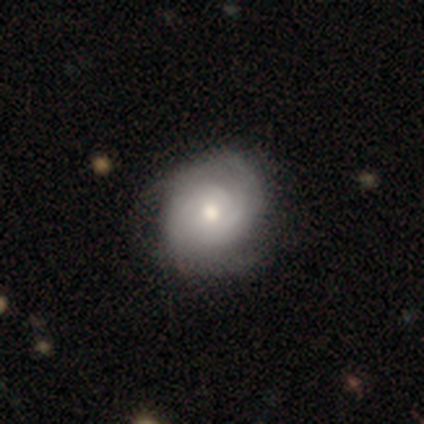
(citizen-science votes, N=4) Volunteers were most divided on "spiral winding": loose: 67%, tight: 33%, medium: 0%. More confident: edge-on disk — no (100%); bar — no (100%); spiral arms — yes (100%); bulge size — moderate (100%); smooth or featured — featured or disk (75%); merging — none (75%); spiral arm count — 2 (67%).